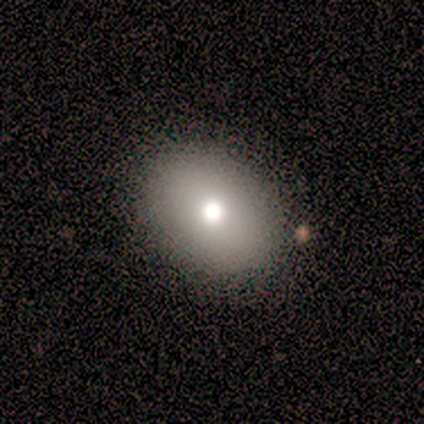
Smooth or featured? smooth (60%)
How rounded? round (67%)
Merging? none (50%)